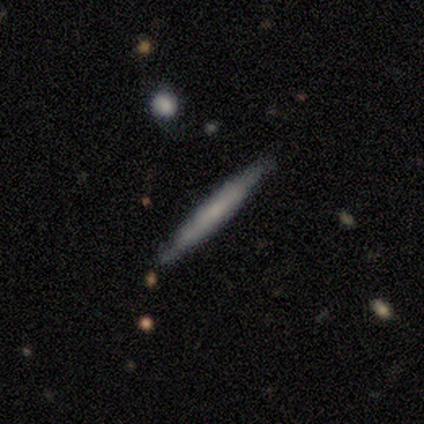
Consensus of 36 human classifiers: smooth_or_featured: featured or disk (p=0.61) [alt: smooth p=0.36]
disk_edge_on: yes (p=1.00)
edge_on_bulge: none (p=0.82) [alt: rounded p=0.14]
merging: none (p=0.91) [alt: minor disturbance p=0.09]